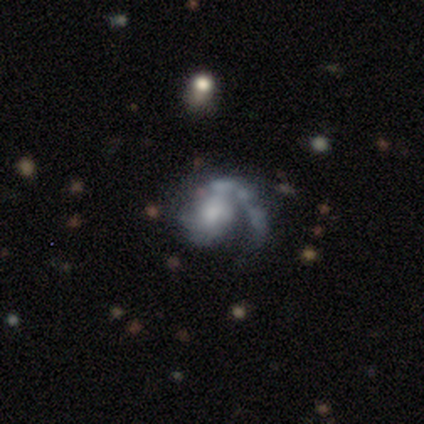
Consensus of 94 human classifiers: Smooth or featured? featured or disk (90%)
Edge-on disk? no (96%)
Bar? no (70%)
Spiral arms? yes (89%)
Spiral winding? medium (36%)
Spiral arm count? 1 (86%)
Bulge size? moderate (35%, tied with small)
Merging? none (49%)